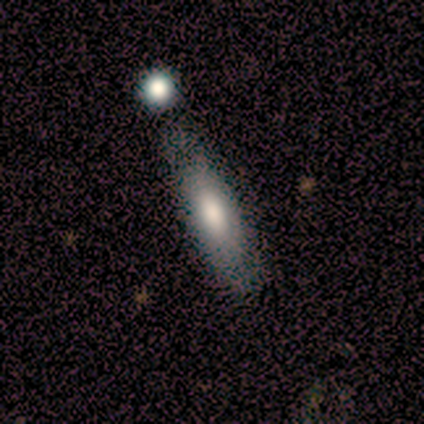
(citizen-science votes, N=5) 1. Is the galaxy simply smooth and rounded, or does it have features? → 60% smooth, 40% featured or disk, 0% star or artifact.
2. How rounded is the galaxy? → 33% round (tied), 33% in between (tied), 33% cigar-shaped (tied).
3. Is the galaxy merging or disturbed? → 60% none, 40% minor disturbance, 0% major disturbance, 0% merger.